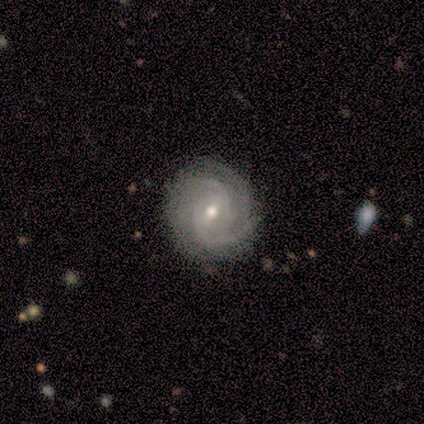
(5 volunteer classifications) Smooth or featured? 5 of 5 (100%) said featured or disk. Edge-on disk? 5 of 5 (100%) said no. Bar? 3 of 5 (60%) said weak. Spiral arms? 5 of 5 (100%) said yes. Spiral winding? 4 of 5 (80%) said tight. Spiral arm count? 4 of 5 (80%) said 2. Bulge size? 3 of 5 (60%) said moderate. Merging? 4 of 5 (80%) said none.